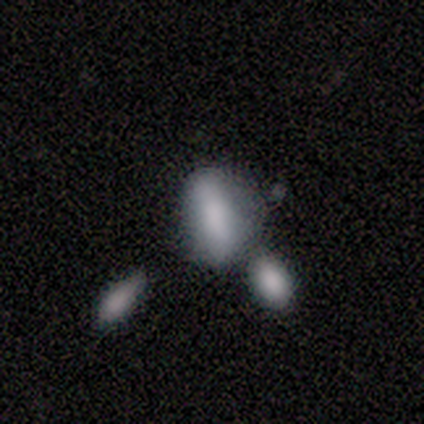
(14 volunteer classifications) Smooth or featured? 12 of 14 (86%) said smooth. How rounded? 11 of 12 (92%) said in between. Merging? 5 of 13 (38%, tied with minor disturbance) said none.